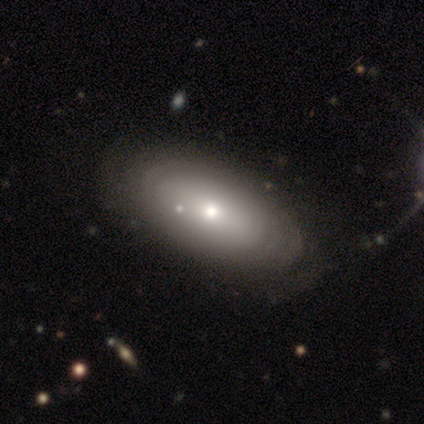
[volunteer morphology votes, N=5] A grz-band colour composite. It shows a smooth galaxy with no disk features (80%) that is in between round and cigar-shaped (100%). Merging: none (80%).